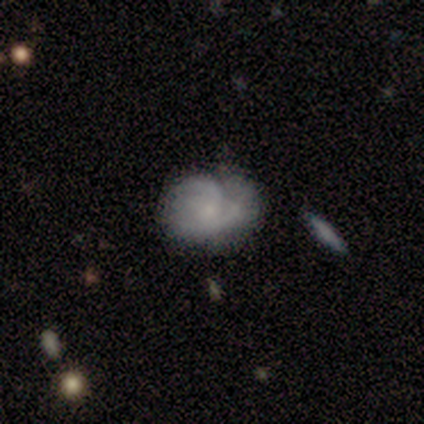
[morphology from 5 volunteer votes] Overall: featured or disk (60%; smooth 40%). Edge-on disk: no (100%). Bar: no (100%). Spiral arms: yes (67%; no 33%). Spiral arm count: 2 (100%). Spiral winding: tight (50%, tied with medium). Bulge size: small (67%; none 33%). Merging: none (40%, tied with minor disturbance).